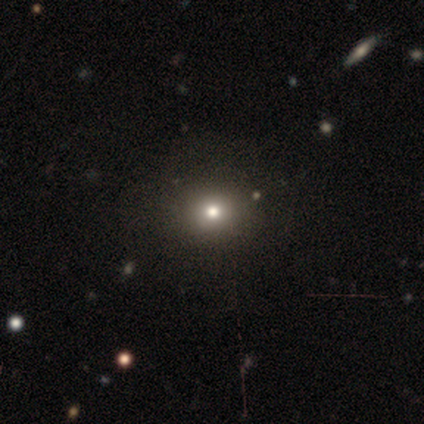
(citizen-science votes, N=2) smooth 50% (tied), star or artifact 50% (tied), featured or disk 0%. Down the decision tree: how rounded — round (100%); merging — none (100%).